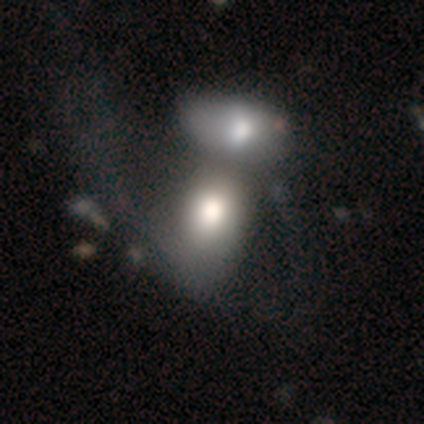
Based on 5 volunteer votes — Smooth or featured?
  - featured or disk: 60% *
  - smooth: 40%
  - star or artifact: 0%
Edge-on disk?
  - no: 100% *
  - yes: 0%
Bar?
  - no: 100% *
  - strong: 0%
  - weak: 0%
Spiral arms?
  - no: 67% *
  - yes: 33%
Bulge size?
  - large: 67% *
  - moderate: 33%
  - dominant: 0%
  - small: 0%
  - none: 0%
Merging?
  - merger: 60% *
  - major disturbance: 40%
  - none: 0%
  - minor disturbance: 0%